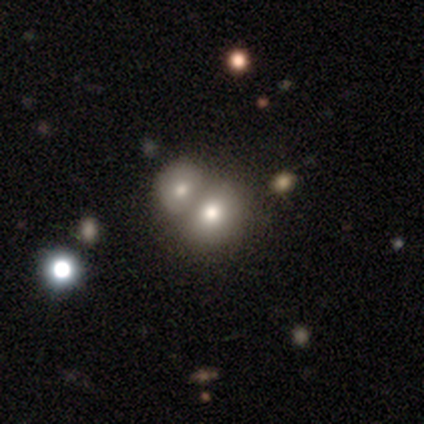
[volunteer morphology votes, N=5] Volunteers were most divided on "how rounded": in between: 75%, round: 25%, cigar-shaped: 0%. More confident: merging — merger (100%); smooth or featured — smooth (80%).